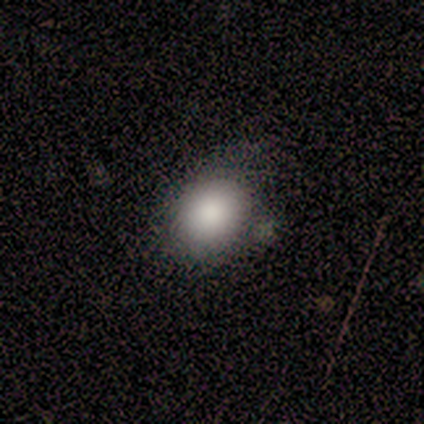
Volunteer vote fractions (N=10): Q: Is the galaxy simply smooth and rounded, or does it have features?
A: smooth — 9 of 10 (90%).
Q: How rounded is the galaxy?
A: round — 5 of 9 (56%).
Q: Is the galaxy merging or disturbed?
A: none — 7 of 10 (70%).